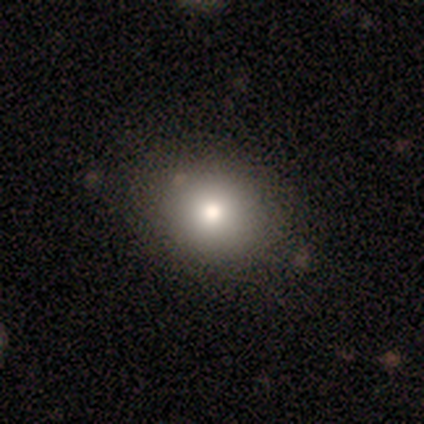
Morphology: type=smooth (79%); roundness=round (57%); merging=none (49%).